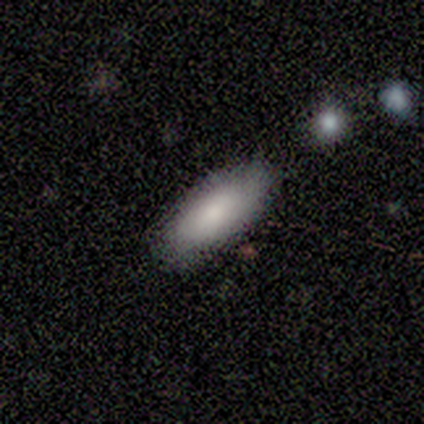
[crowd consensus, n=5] A smooth galaxy with no disk features (80%) that is in between round and cigar-shaped (100%).

Vote fractions:
- Smooth or featured? smooth: 80% / star or artifact: 20% / featured or disk: 0%
- How rounded? in between: 100% / round: 0% / cigar-shaped: 0%
- Merging? none: 75% / minor disturbance: 25% / major disturbance: 0% / merger: 0%